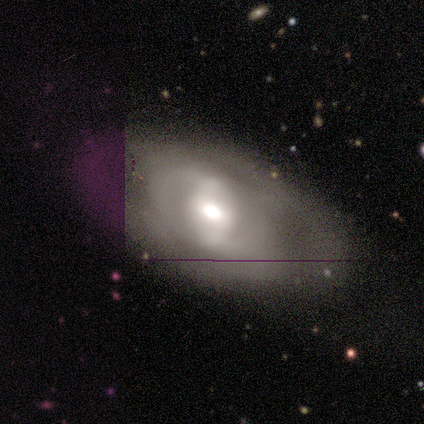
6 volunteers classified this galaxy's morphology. Smooth or featured? 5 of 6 (83%) said featured or disk. Edge-on disk? 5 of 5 (100%) said no. Bar? 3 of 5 (60%) said strong. Spiral arms? 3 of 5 (60%) said no. Bulge size? 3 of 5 (60%) said moderate. Merging? 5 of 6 (83%) said none.